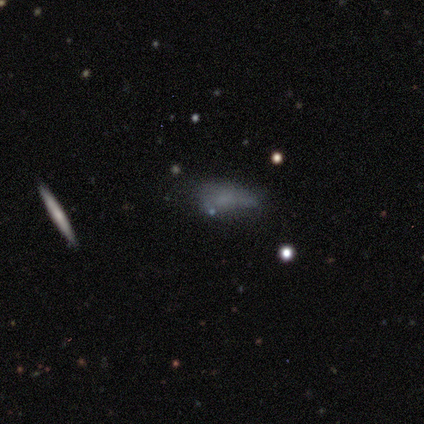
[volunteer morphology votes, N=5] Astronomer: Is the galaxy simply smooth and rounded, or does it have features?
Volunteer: featured or disk — 60%.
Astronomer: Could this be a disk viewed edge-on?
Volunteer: yes — 100%.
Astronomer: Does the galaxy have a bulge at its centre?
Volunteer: none — 67%.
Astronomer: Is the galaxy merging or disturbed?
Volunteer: none — 75%.